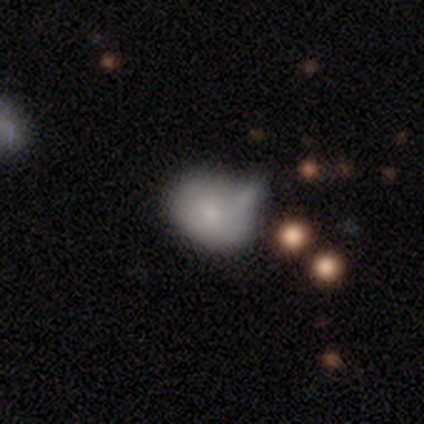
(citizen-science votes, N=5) smooth_or_featured: smooth (p=1.00)
how_rounded: in between (p=0.60) [alt: round p=0.40]
merging: merger (p=0.60) [alt: none p=0.20]